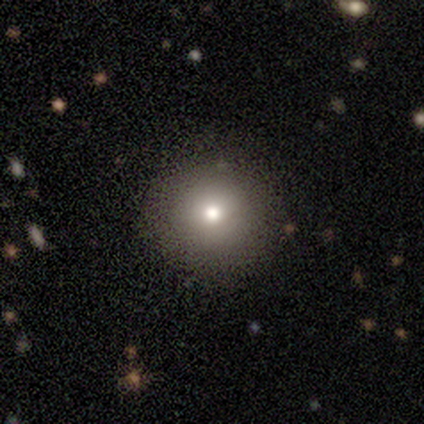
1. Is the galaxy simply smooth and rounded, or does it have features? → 60% smooth, 20% featured or disk, 20% star or artifact.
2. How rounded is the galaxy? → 100% round, 0% in between, 0% cigar-shaped.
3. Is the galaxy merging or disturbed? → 75% none, 25% major disturbance, 0% minor disturbance, 0% merger.